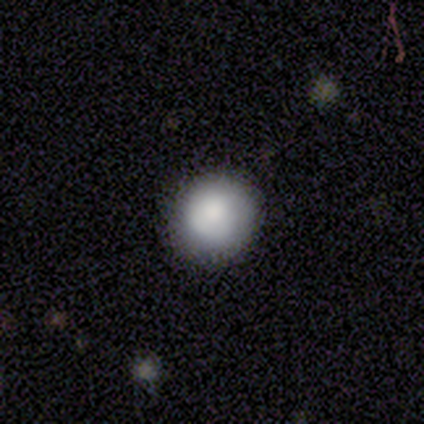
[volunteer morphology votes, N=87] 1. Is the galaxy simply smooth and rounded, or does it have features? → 87% smooth, 7% star or artifact, 6% featured or disk.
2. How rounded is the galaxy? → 95% round, 5% in between, 0% cigar-shaped.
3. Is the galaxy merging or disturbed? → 88% none, 10% minor disturbance, 1% major disturbance, 1% merger.